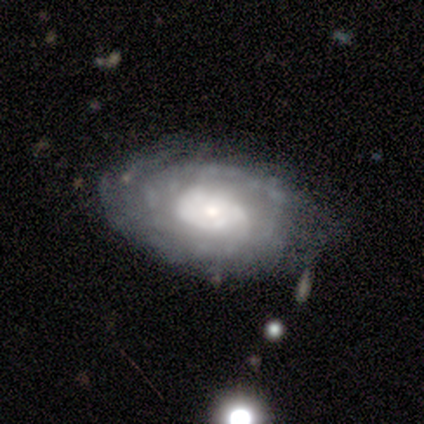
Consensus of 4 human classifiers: featured or disk 75%, star or artifact 25%, smooth 0%. Down the decision tree: edge-on disk — no (100%); bar — no (67%); spiral arms — yes (67%); spiral arm count — can't tell (100%); spiral winding — medium (100%); bulge size — small (67%); merging — none (67%).